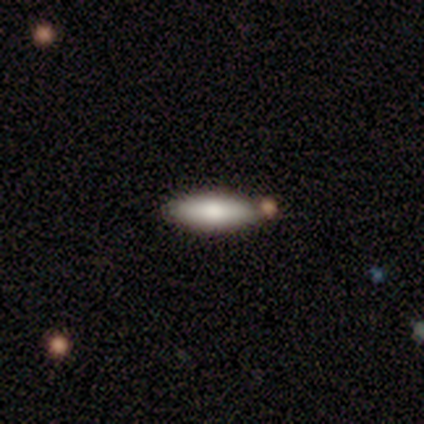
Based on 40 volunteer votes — smooth_or_featured: smooth (p=0.85) [alt: featured or disk p=0.12]
how_rounded: in between (p=0.53) [alt: cigar-shaped p=0.47]
merging: none (p=0.74) [alt: merger p=0.15]